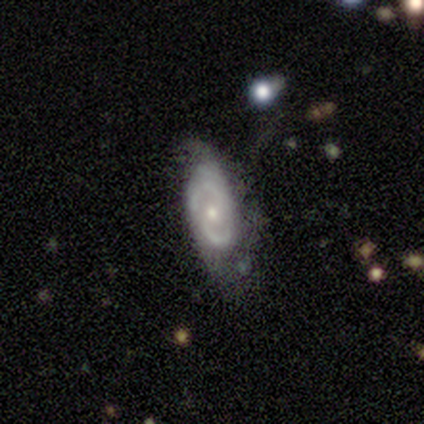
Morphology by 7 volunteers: Smooth or featured: featured or disk — 71% (smooth — 14%)
Edge-on disk: no — 100%
Bar: no — 60% (weak — 40%)
Spiral arms: yes — 100%
Spiral winding: tight — 40% (tied with loose — 40%)
Spiral arm count: 2 — 60% (can't tell — 40%)
Bulge size: small — 80% (moderate — 20%)
Merging: minor disturbance — 50% (none — 33%)